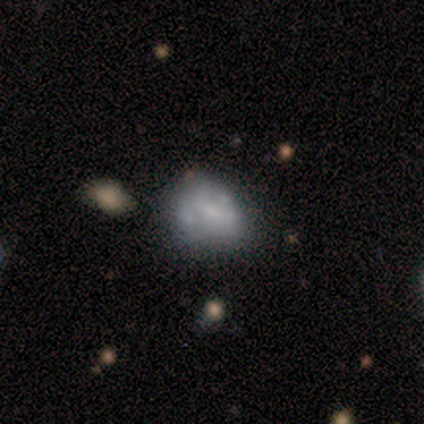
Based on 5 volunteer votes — Overall: smooth (60%; featured or disk 40%). How rounded: in between (67%; round 33%). Merging: minor disturbance (40%; none 20%).